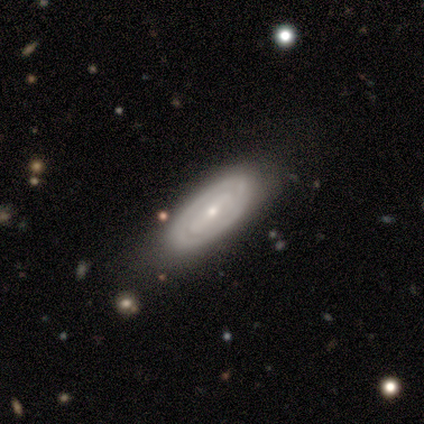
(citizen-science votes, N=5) Overall: featured or disk (80%). Edge-on disk: no (75%). Bar: weak (67%; strong 33%). Spiral arms: yes (100%). Spiral arm count: 2 (100%). Spiral winding: tight (100%). Bulge size: small (100%). Merging: none (40%, tied with minor disturbance).